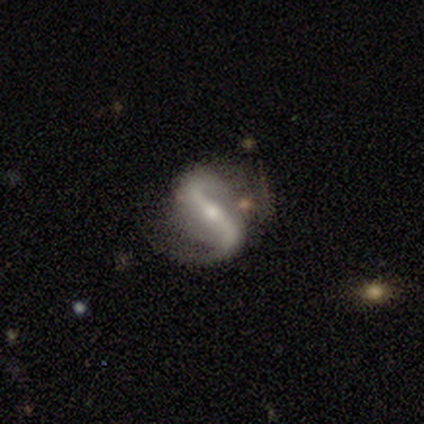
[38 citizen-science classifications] Volunteers were most divided on "spiral winding": loose: 52%, medium: 45%, tight: 3%. More confident: spiral arms — yes (97%); edge-on disk — no (94%); spiral arm count — 2 (94%); smooth or featured — featured or disk (89%); bar — strong (69%); bulge size — small (59%); merging — none (51%).